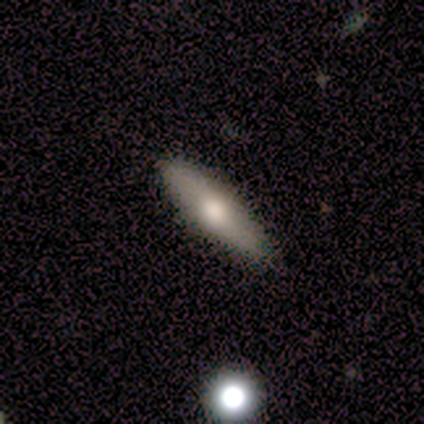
smooth 60%, featured or disk 40%, star or artifact 0%. Down the decision tree: how rounded — cigar-shaped (67%); merging — none (60%).